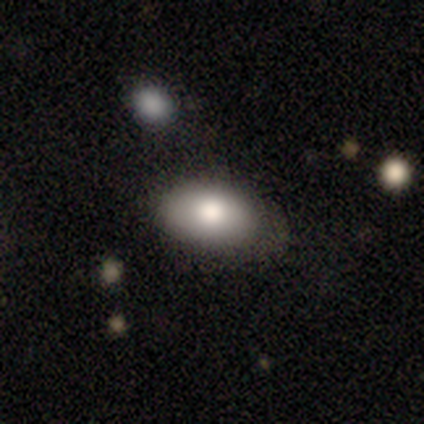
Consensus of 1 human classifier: Consensus on every question: smooth or featured — smooth (100%); how rounded — in between (100%); merging — none (100%).